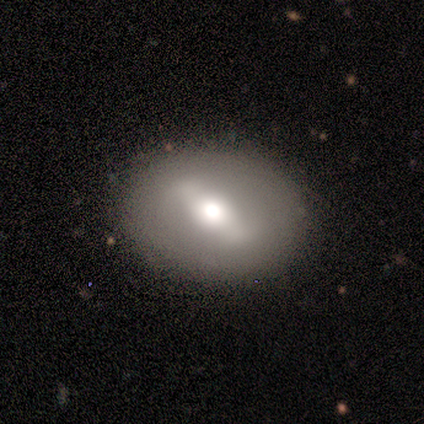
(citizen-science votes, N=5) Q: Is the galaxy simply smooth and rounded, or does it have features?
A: smooth — 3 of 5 (60%).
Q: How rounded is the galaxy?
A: in between — 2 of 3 (67%).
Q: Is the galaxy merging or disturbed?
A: none — 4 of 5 (80%).